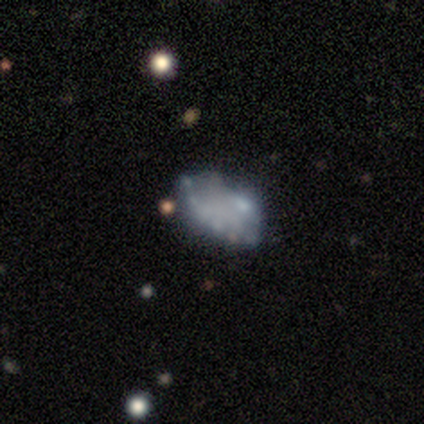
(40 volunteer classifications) A featured or disk galaxy (57%) with no bar (100%), no spiral arms (91%) and no central bulge (83%). Merging: none (42%).